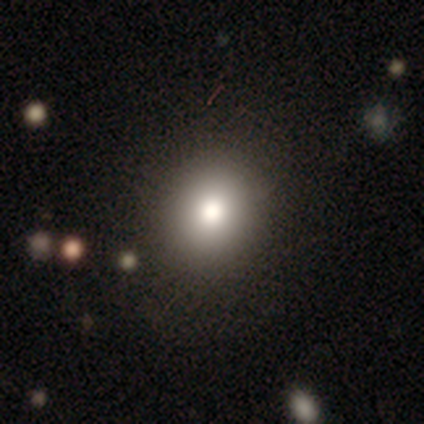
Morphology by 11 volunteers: smooth-or-featured: smooth: 73% | featured or disk: 27% | star or artifact: 0%
  how-rounded: round: 88% | in between: 12% | cigar-shaped: 0%
  merging: none: 91% | minor disturbance: 9% | major disturbance: 0% | merger: 0%